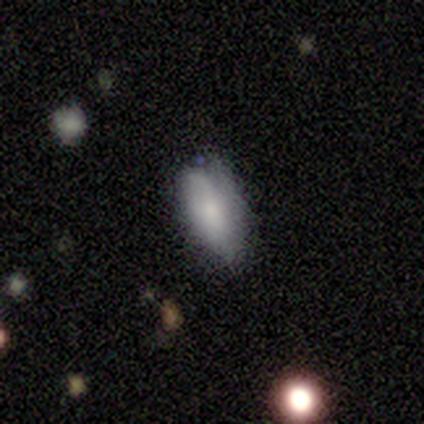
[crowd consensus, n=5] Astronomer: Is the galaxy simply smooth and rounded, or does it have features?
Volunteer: smooth — 60%.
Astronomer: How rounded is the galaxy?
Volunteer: in between — 67%.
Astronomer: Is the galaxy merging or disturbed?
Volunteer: none — 50%, tied with minor disturbance at 50%.